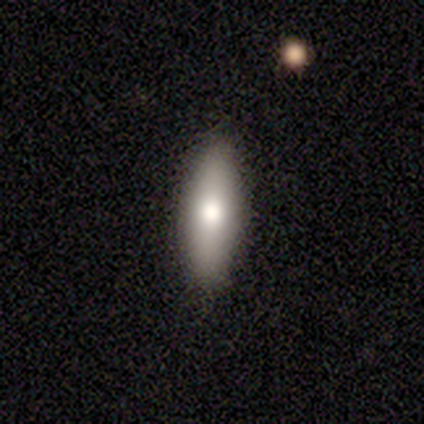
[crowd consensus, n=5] Q: Smooth or featured?
A: smooth (60%); runner-up: featured or disk (40%)
Q: How rounded?
A: in between (67%); runner-up: cigar-shaped (33%)
Q: Merging?
A: none (100%)